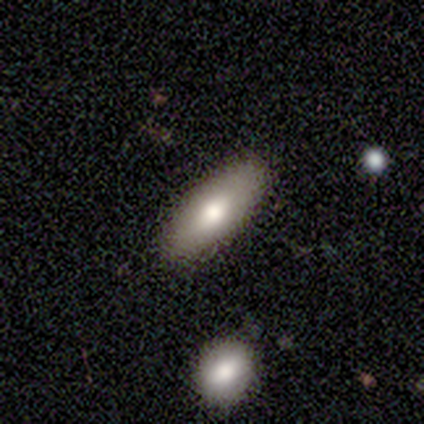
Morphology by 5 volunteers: A featured or disk galaxy (60%) with no bar (100%), no spiral arms (100%) and a small central bulge (50%, tied with none).

Vote fractions:
- Smooth or featured? featured or disk: 60% / smooth: 40% / star or artifact: 0%
- Edge-on disk? no: 67% / yes: 33%
- Bar? no: 100% / strong: 0% / weak: 0%
- Spiral arms? no: 100% / yes: 0%
- Bulge size? small: 50% (tied) / none: 50% (tied) / dominant: 0% / large: 0% / moderate: 0%
- Merging? none: 80% / minor disturbance: 20% / major disturbance: 0% / merger: 0%